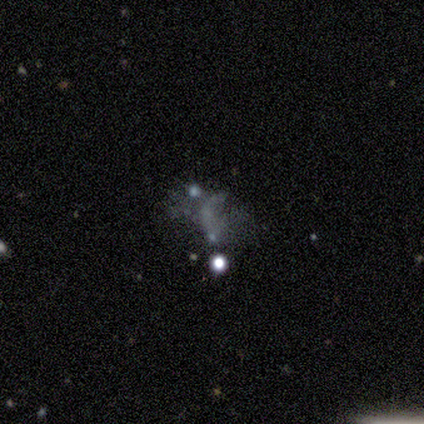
featured or disk 40% (tied), star or artifact 40% (tied), smooth 20%. Down the decision tree: edge-on disk — no (100%); bar — no (100%); spiral arms — no (100%); bulge size — none (100%); merging — none (67%).